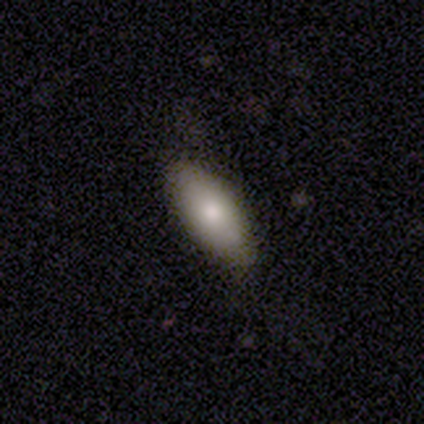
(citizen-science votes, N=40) Smooth or featured: smooth — 78% (featured or disk — 12%)
How rounded: in between — 90% (cigar-shaped — 10%)
Merging: none — 89% (minor disturbance — 11%)